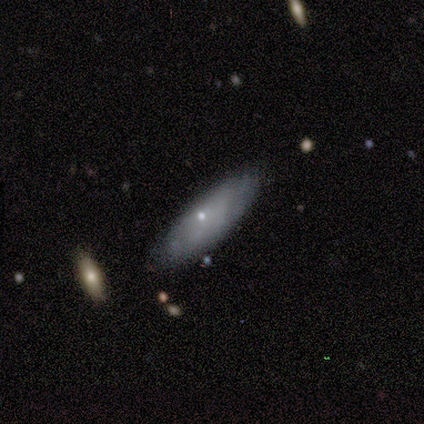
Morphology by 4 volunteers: Smooth or featured? smooth (50%, tied with featured or disk)
How rounded? in between (100%)
Merging? none (75%)